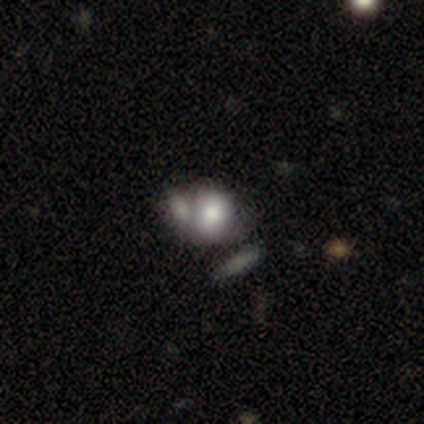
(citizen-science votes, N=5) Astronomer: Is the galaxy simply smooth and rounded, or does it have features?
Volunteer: smooth — 60% (runner-up: star or artifact, 40%).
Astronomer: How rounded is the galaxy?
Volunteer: in between — 67%.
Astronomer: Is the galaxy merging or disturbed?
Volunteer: merger — 67%.